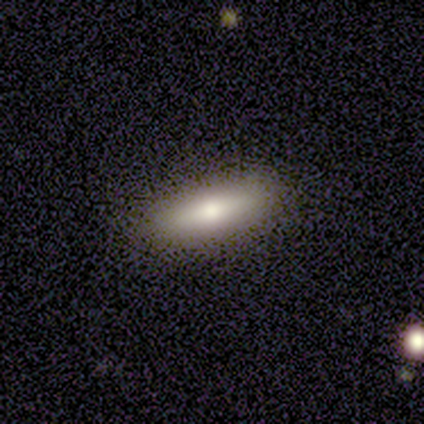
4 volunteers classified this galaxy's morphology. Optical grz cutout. It shows a smooth galaxy with no disk features (75%) that is cigar-shaped (100%). Merging: none (100%).